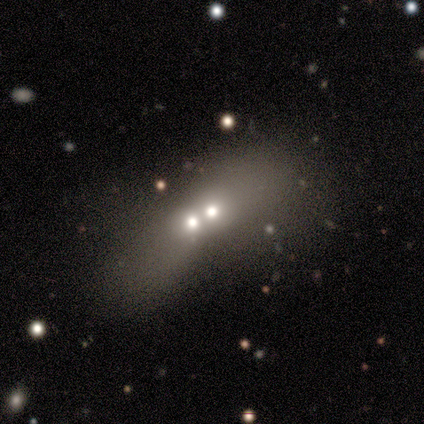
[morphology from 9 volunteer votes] type=star or artifact (56%).